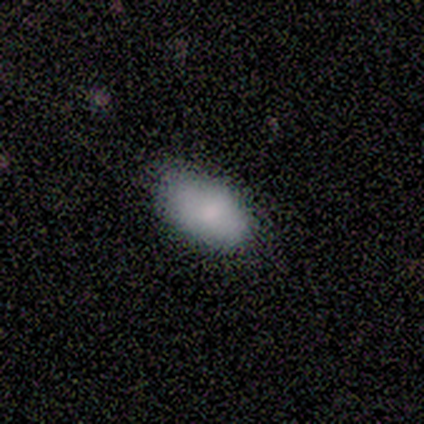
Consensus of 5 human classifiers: Smooth or featured? smooth (80%)
How rounded? in between (100%)
Merging? none (100%)